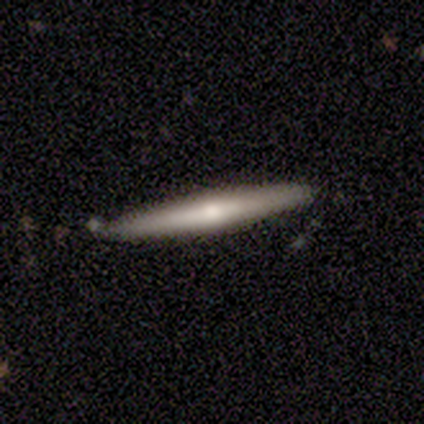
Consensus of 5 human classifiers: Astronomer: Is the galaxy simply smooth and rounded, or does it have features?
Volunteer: featured or disk — 80%.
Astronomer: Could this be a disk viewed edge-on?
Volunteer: yes — 100%.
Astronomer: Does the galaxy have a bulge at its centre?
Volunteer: none — 75%.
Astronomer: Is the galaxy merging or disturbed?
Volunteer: none — 100%.